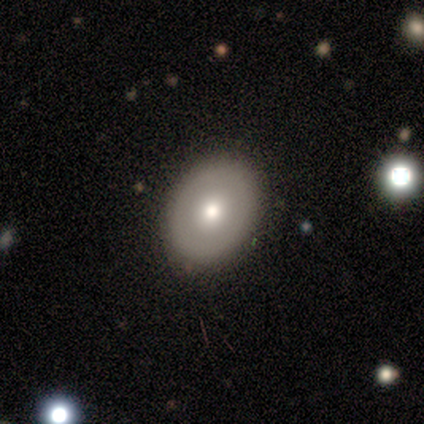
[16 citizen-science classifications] This is likely a smooth galaxy (75%). How rounded: possibly round (50%, tied with in between). Merging: clearly none (100%).